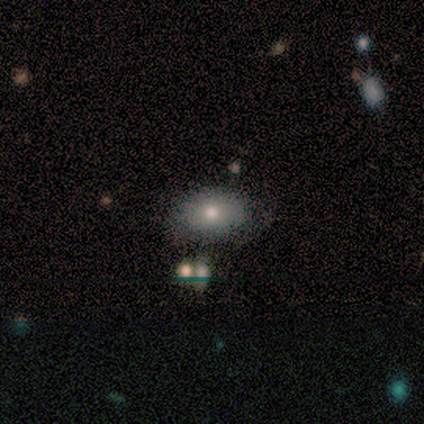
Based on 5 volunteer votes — Smooth or featured? 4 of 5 (80%) said smooth. How rounded? 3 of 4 (75%) said round. Merging? 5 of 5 (100%) said none.